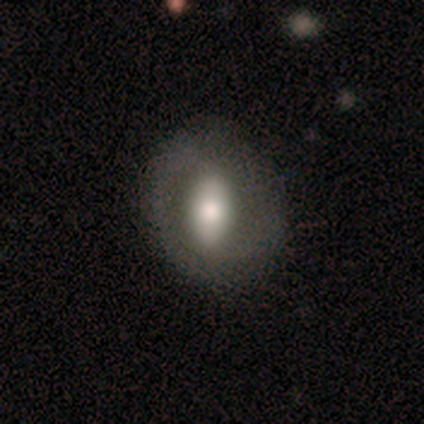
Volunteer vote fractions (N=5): A smooth galaxy with no disk features (60%) that is round (67%). Merging: none (100%).